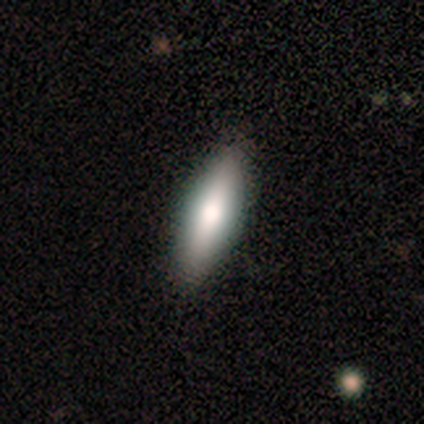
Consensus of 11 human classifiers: smooth_or_featured: smooth (p=0.55) [alt: featured or disk p=0.45]
how_rounded: in between (p=0.50) [tied with: cigar-shaped p=0.50]
merging: none (p=0.82) [alt: minor disturbance p=0.18]